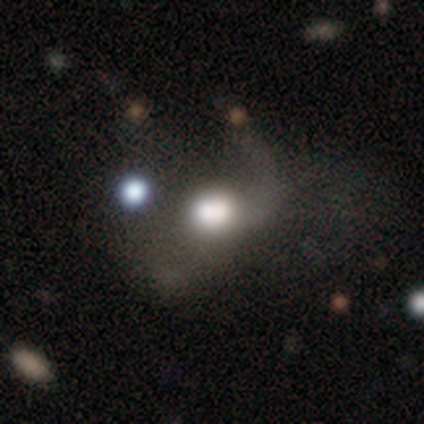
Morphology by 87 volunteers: Volunteers were most divided on "merging": major disturbance: 42%, merger: 30%, none: 19%, minor disturbance: 8%. More confident: how rounded — round (69%); smooth or featured — smooth (55%).